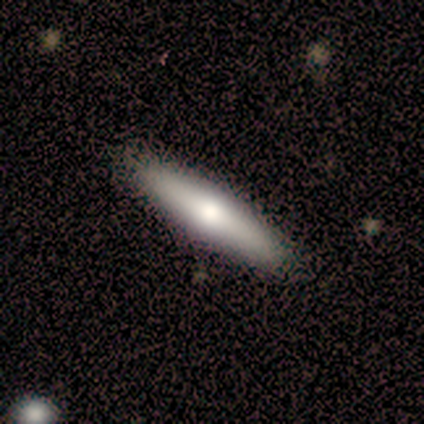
A smooth galaxy with no disk features (80%) that is cigar-shaped (100%). Merging: none (100%).